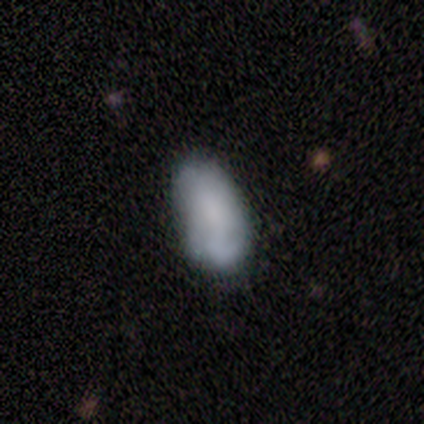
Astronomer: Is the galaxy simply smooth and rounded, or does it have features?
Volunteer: smooth — 67%.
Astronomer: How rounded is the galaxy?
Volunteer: in between — 100%.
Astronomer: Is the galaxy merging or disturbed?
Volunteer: none — 70%.